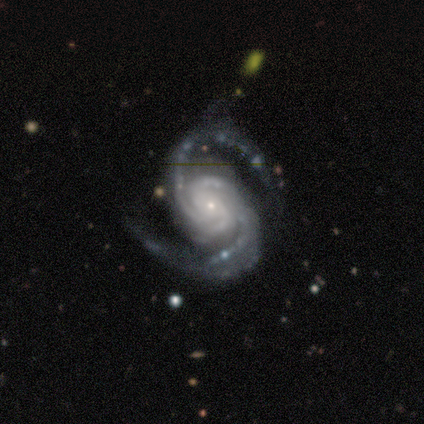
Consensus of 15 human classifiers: smooth_or_featured: featured or disk (p=1.00)
disk_edge_on: no (p=0.93) [alt: yes p=0.07]
bar: no (p=0.86) [alt: strong p=0.07]
has_spiral_arms: yes (p=1.00)
spiral_winding: tight (p=0.50) [tied with: medium p=0.50]
spiral_arm_count: 2 (p=0.93) [alt: 3 p=0.07]
bulge_size: small (p=0.64) [alt: large p=0.14]
merging: none (p=0.87) [alt: major disturbance p=0.07]